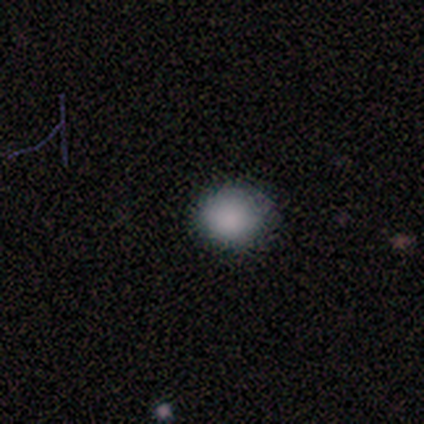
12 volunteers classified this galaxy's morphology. A smooth galaxy with no disk features (92%) that is round (64%). Merging: none (82%).